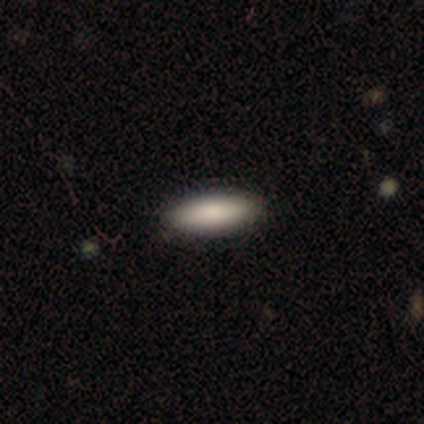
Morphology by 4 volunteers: type=smooth (100%); roundness=in between (50%, tied with cigar-shaped); merging=none (100%).